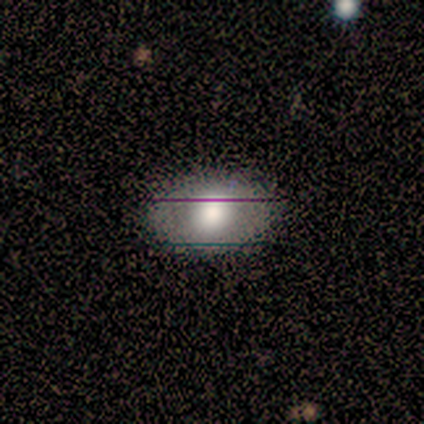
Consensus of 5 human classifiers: This is likely a smooth galaxy (60%). How rounded: likely in between (67%). Merging: clearly none (80%).